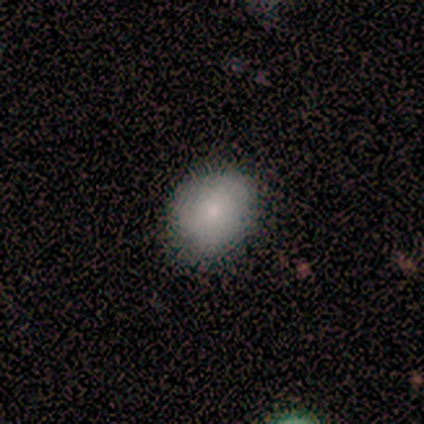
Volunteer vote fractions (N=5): A smooth galaxy with no disk features (80%) that is round (75%).

Vote fractions:
- Smooth or featured? smooth: 80% / star or artifact: 20% / featured or disk: 0%
- How rounded? round: 75% / in between: 25% / cigar-shaped: 0%
- Merging? none: 50% (tied) / minor disturbance: 50% (tied) / major disturbance: 0% / merger: 0%